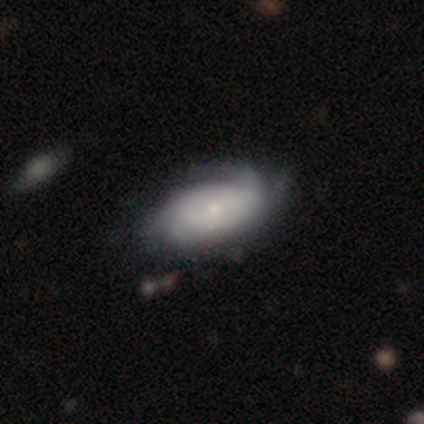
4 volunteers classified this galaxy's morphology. smooth-or-featured: smooth: 75% | featured or disk: 25% | star or artifact: 0%
  how-rounded: in between: 67% | cigar-shaped: 33% | round: 0%
  merging: none: 75% | minor disturbance: 25% | major disturbance: 0% | merger: 0%